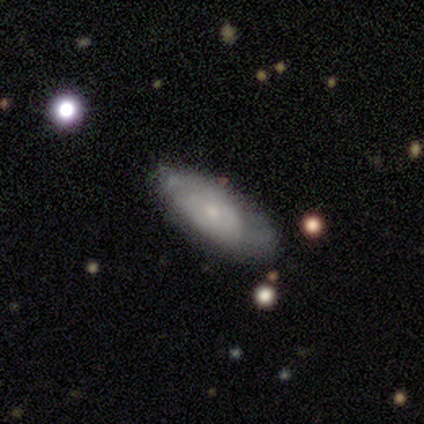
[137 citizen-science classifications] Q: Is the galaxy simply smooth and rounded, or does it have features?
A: featured or disk — 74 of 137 (54%).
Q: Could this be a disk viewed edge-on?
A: no — 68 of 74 (92%).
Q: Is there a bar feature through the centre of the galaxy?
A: no — 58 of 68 (85%).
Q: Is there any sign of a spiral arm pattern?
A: yes — 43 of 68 (63%).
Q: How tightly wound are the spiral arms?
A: tight — 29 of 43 (67%).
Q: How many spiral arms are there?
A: can't tell — 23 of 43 (53%).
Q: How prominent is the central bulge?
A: small — 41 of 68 (60%).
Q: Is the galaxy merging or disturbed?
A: none — 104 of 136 (76%).